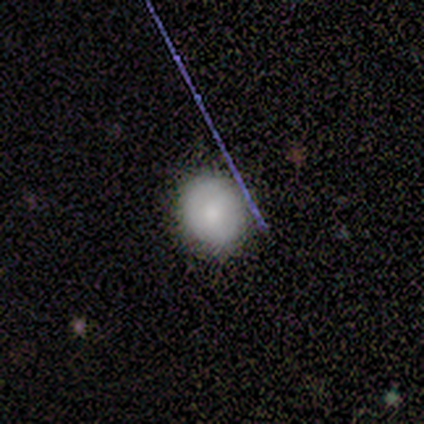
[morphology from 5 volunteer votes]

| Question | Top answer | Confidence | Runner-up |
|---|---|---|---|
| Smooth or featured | smooth | 100% | — |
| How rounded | round | 80% | in between (20%) |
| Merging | none | 100% | — |